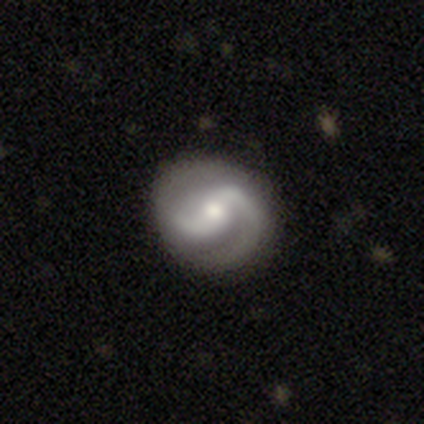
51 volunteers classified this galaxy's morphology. Smooth or featured? featured or disk (84%)
Edge-on disk? no (100%)
Bar? weak (49%)
Spiral arms? yes (98%)
Spiral winding? medium (50%)
Spiral arm count? 2 (93%)
Bulge size? moderate (65%)
Merging? none (78%)